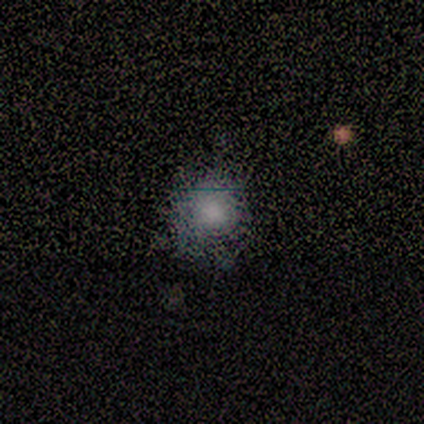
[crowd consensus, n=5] Smooth or featured?
  - smooth: 60% *
  - featured or disk: 20%
  - star or artifact: 20%
How rounded?
  - in between: 67% *
  - round: 33%
  - cigar-shaped: 0%
Merging?
  - none: 75% *
  - minor disturbance: 25%
  - major disturbance: 0%
  - merger: 0%